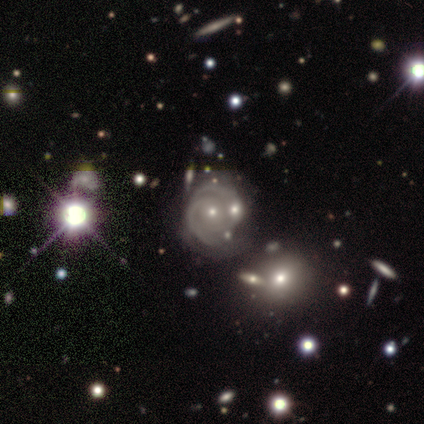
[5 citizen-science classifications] smooth_or_featured: featured or disk (p=0.80) [alt: smooth p=0.20]
disk_edge_on: no (p=1.00)
bar: no (p=0.75) [alt: weak p=0.25]
has_spiral_arms: yes (p=1.00)
spiral_winding: tight (p=0.75) [alt: medium p=0.25]
spiral_arm_count: 2 (p=0.50) [alt: more than 4 p=0.25]
bulge_size: small (p=0.50) [alt: moderate p=0.25]
merging: none (p=0.40) [tied with: merger p=0.40]